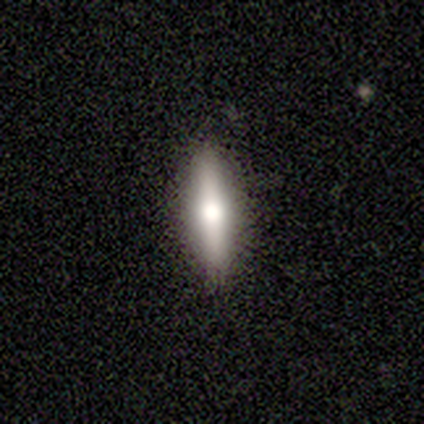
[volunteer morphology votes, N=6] smooth_or_featured: smooth (p=0.83) [alt: featured or disk p=0.17]
how_rounded: cigar-shaped (p=0.60) [alt: in between p=0.40]
merging: none (p=1.00)